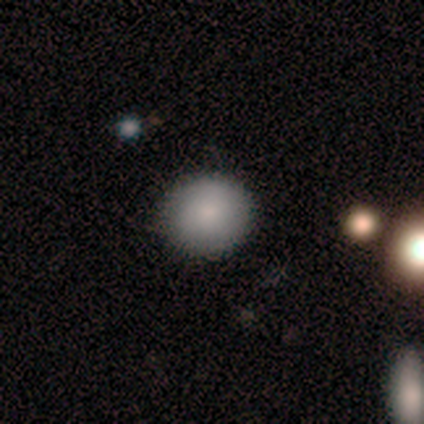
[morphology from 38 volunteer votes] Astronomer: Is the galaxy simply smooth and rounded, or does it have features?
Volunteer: smooth — 89%.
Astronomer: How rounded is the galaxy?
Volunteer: round — 76%.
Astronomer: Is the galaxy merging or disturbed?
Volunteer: none — 69%.